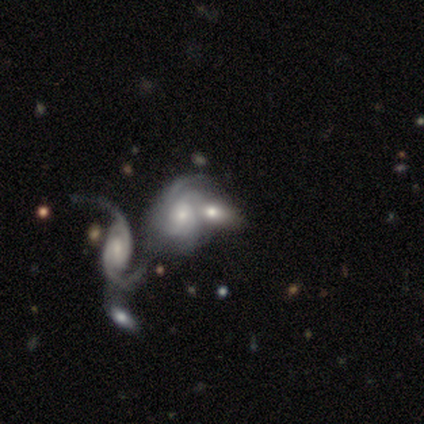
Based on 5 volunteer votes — smooth-or-featured: smooth: 60% | featured or disk: 40% | star or artifact: 0%
  how-rounded: in between: 100% | round: 0% | cigar-shaped: 0%
  merging: merger: 60% | none: 40% | minor disturbance: 0% | major disturbance: 0%